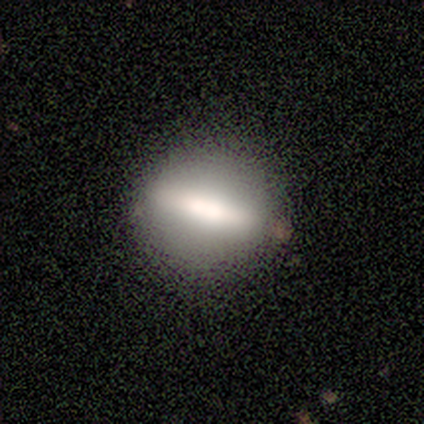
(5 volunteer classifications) A featured or disk galaxy (60%) with a strong bar (50%, tied with no), no spiral arms (100%) and a moderate central bulge (50%, tied with none).

Vote fractions:
- Smooth or featured? featured or disk: 60% / smooth: 40% / star or artifact: 0%
- Edge-on disk? no: 67% / yes: 33%
- Bar? strong: 50% (tied) / no: 50% (tied) / weak: 0%
- Spiral arms? no: 100% / yes: 0%
- Bulge size? moderate: 50% (tied) / none: 50% (tied) / dominant: 0% / large: 0% / small: 0%
- Merging? none: 100% / minor disturbance: 0% / major disturbance: 0% / merger: 0%